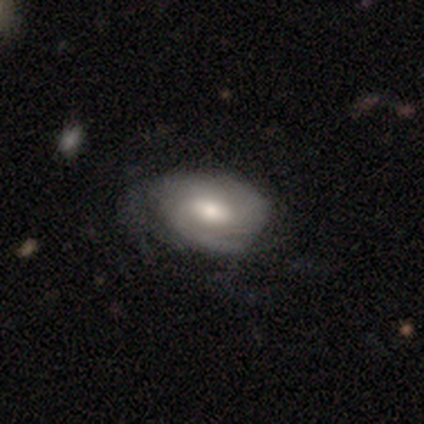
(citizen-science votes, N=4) Smooth or featured: featured or disk — 75% (smooth — 25%)
Edge-on disk: no — 67% (yes — 33%)
Bar: strong — 50% (tied with no — 50%)
Spiral arms: no — 100%
Bulge size: moderate — 100%
Merging: none — 50% (tied with minor disturbance — 50%)